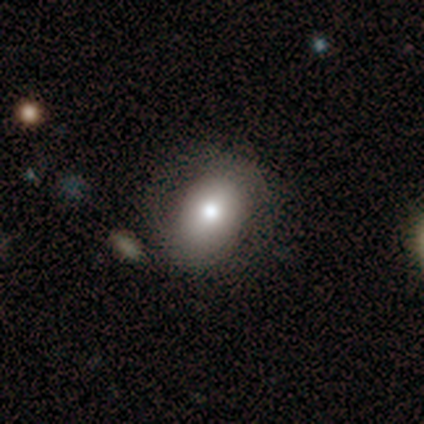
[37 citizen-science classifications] smooth 78%, featured or disk 19%, star or artifact 3%. Down the decision tree: how rounded — in between (76%); merging — none (75%).